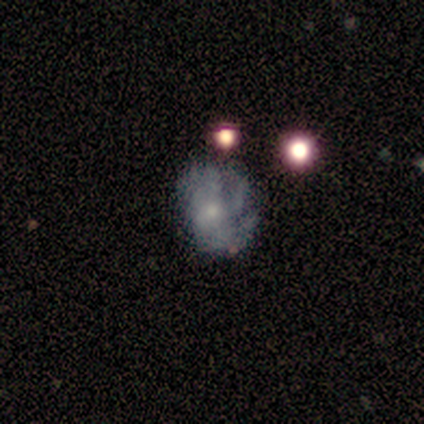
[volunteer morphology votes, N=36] A featured or disk galaxy (81%) with no bar (72%), medium (50%) spiral arms (83%) and a small central bulge (69%).

Vote fractions:
- Smooth or featured? featured or disk: 81% / smooth: 19% / star or artifact: 0%
- Edge-on disk? no: 100% / yes: 0%
- Bar? no: 72% / strong: 14% / weak: 14%
- Spiral arms? yes: 83% / no: 17%
- Spiral winding? medium: 50% / tight: 29% / loose: 21%
- Spiral arm count? can't tell: 46% / 3: 42% / more than 4: 8% / 4: 4% / 1: 0% / 2: 0%
- Bulge size? small: 69% / moderate: 24% / none: 7% / dominant: 0% / large: 0%
- Merging? none: 42% / minor disturbance: 36% / major disturbance: 19% / merger: 3%